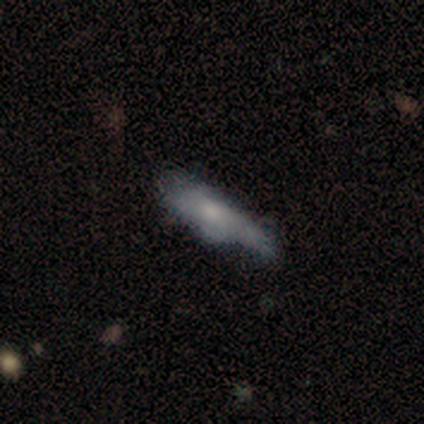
Smooth or featured? 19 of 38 (50%, tied with featured or disk) said smooth. How rounded? 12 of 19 (63%) said cigar-shaped. Merging? 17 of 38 (45%) said none.